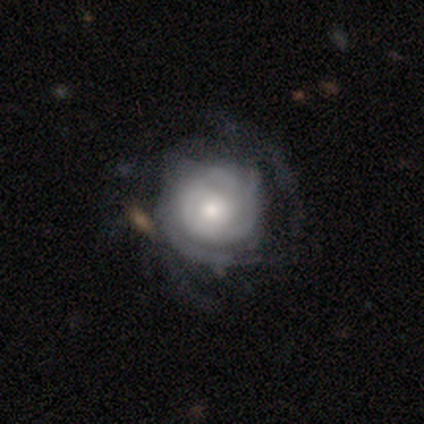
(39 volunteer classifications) This appears to be a featured or disk galaxy (92%) with no bar (86%), tight (73%) spiral arms (94%) and a moderate central bulge (46%). Merging: none (33%).